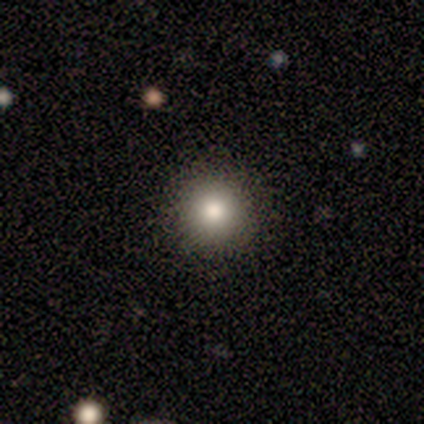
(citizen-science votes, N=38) smooth_or_featured: smooth (p=0.76) [alt: star or artifact p=0.21]
how_rounded: round (p=0.93) [alt: in between p=0.03]
merging: none (p=0.87) [alt: minor disturbance p=0.07]